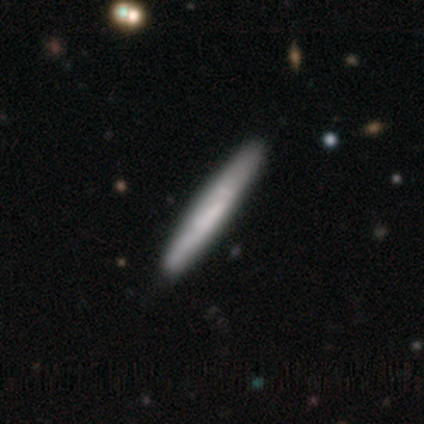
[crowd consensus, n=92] Overall: smooth (66%). How rounded: cigar-shaped (100%). Merging: none (95%).